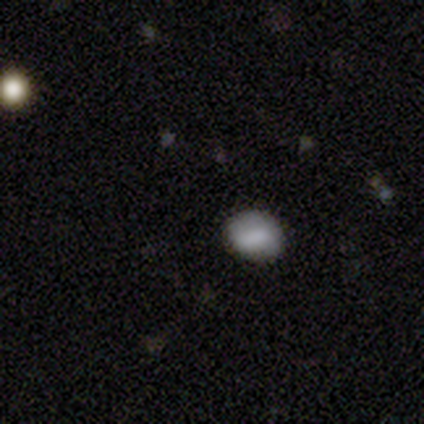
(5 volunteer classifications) Smooth or featured? 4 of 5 (80%) said smooth. How rounded? 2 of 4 (50%, tied with in between) said round. Merging? 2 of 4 (50%, tied with minor disturbance) said none.